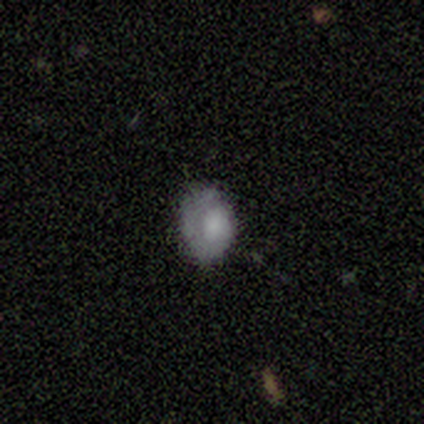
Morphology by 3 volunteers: Smooth or featured? 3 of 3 (100%) said featured or disk. Edge-on disk? 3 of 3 (100%) said no. Bar? 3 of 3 (100%) said no. Spiral arms? 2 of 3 (67%) said no. Bulge size? 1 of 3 (33%, tied with moderate and none) said large. Merging? 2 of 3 (67%) said none.